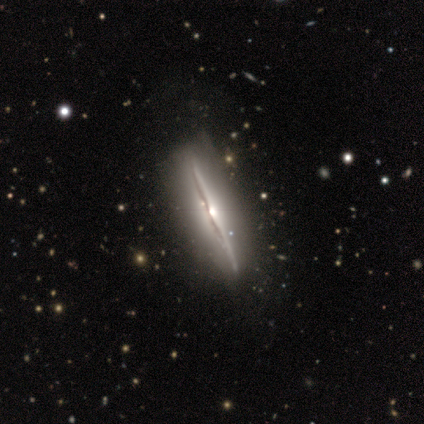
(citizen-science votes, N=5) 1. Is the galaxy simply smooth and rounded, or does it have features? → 80% featured or disk, 20% star or artifact, 0% smooth.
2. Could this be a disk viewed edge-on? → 100% yes, 0% no.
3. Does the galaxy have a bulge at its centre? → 75% rounded, 25% none, 0% boxy.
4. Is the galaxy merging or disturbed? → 100% none, 0% minor disturbance, 0% major disturbance, 0% merger.